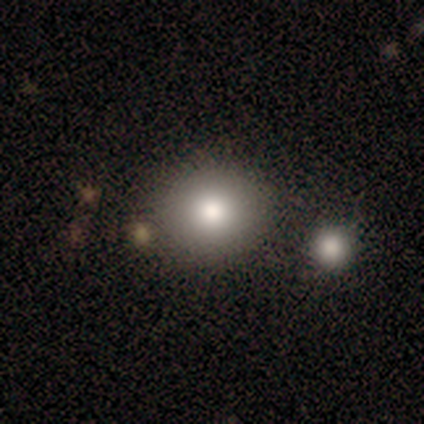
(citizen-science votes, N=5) This appears to be a smooth galaxy with no disk features (80%) that is round (75%). Merging: none (75%).